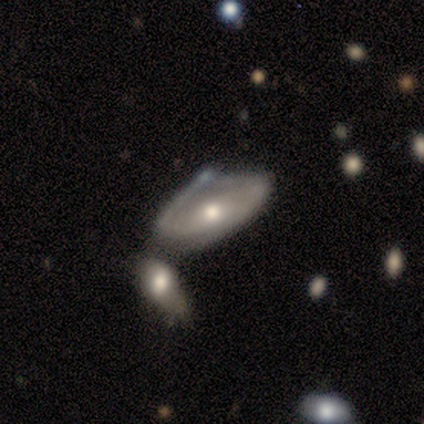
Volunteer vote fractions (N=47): This is likely a featured or disk galaxy (70%). It is clearly not viewed edge-on (85%). Bar: likely no (64%). Spiral arm pattern: likely yes (75%). Spiral arm count: possibly 2 (52%). Spiral winding: possibly tight (57%). Central bulge: likely moderate (71%). Merging: marginally merger (43%).